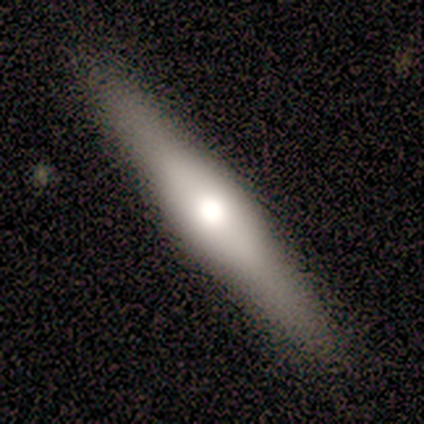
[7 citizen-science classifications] This is possibly a featured or disk galaxy (57%). It is clearly viewed edge-on (100%). Edge-on bulge: likely rounded (75%). Merging: clearly none (86%).